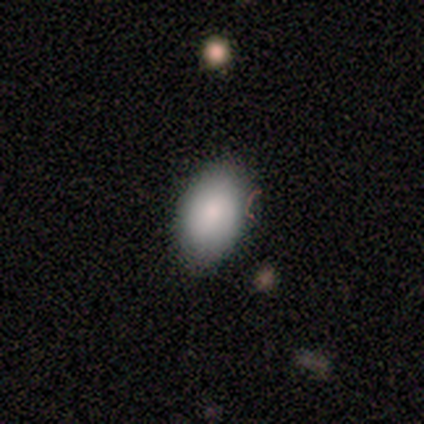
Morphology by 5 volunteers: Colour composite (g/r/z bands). It shows a smooth galaxy with no disk features (60%) that is in between round and cigar-shaped (100%). Merging: none (100%).